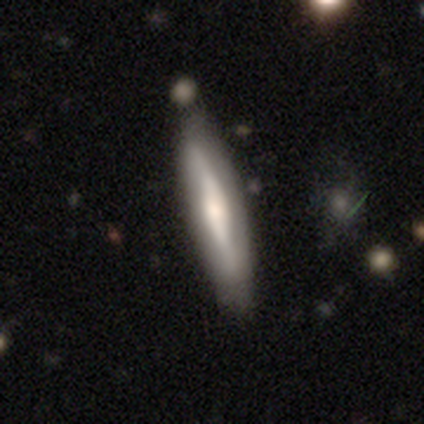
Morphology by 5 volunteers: A smooth galaxy with no disk features (60%) that is cigar-shaped (100%).

Vote fractions:
- Smooth or featured? smooth: 60% / featured or disk: 40% / star or artifact: 0%
- How rounded? cigar-shaped: 100% / round: 0% / in between: 0%
- Merging? none: 100% / minor disturbance: 0% / major disturbance: 0% / merger: 0%